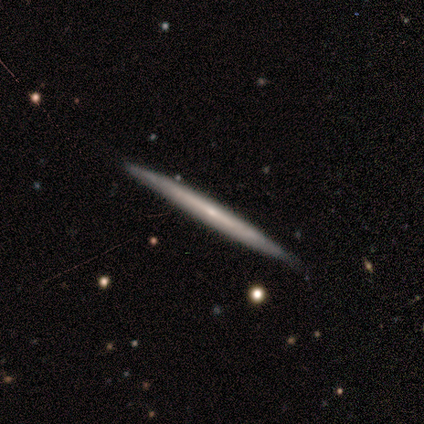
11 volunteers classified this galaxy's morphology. A featured or disk galaxy (73%) viewed edge-on (100%) with no central bulge (75%). Merging: none (91%).